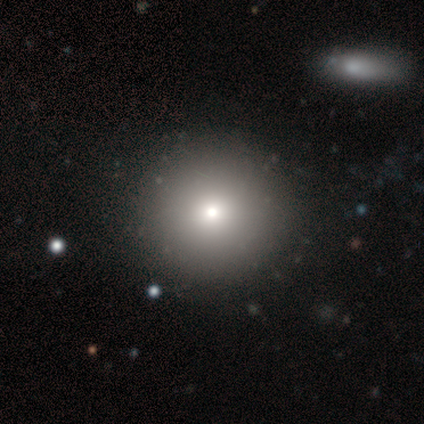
A smooth galaxy with no disk features (75%) that is round (100%).

Vote fractions:
- Smooth or featured? smooth: 75% / star or artifact: 25% / featured or disk: 0%
- How rounded? round: 100% / in between: 0% / cigar-shaped: 0%
- Merging? none: 100% / minor disturbance: 0% / major disturbance: 0% / merger: 0%